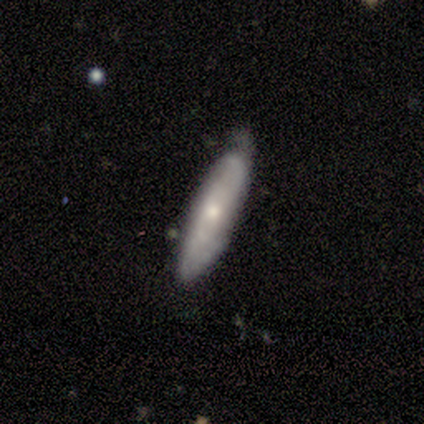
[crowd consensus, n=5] Volunteers were most divided on "smooth or featured": smooth: 60%, featured or disk: 40%, star or artifact: 0%. More confident: merging — minor disturbance (80%); how rounded — cigar-shaped (67%).